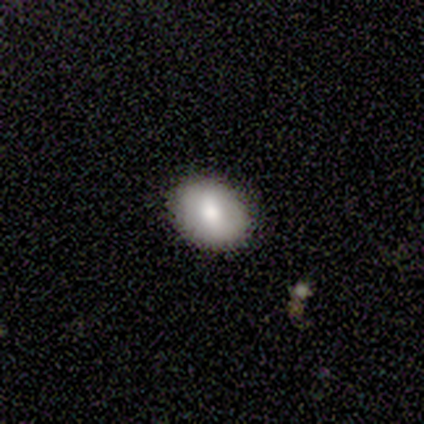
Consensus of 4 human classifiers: featured or disk 75%, smooth 25%, star or artifact 0%. Down the decision tree: edge-on disk — yes (67%); edge-on bulge — rounded (100%); merging — none (100%).